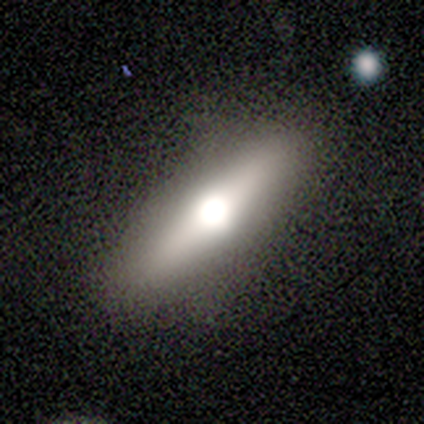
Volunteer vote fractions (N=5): featured or disk 60%, smooth 20%, star or artifact 20%. Down the decision tree: edge-on disk — yes (100%); edge-on bulge — rounded (100%); merging — none (75%).